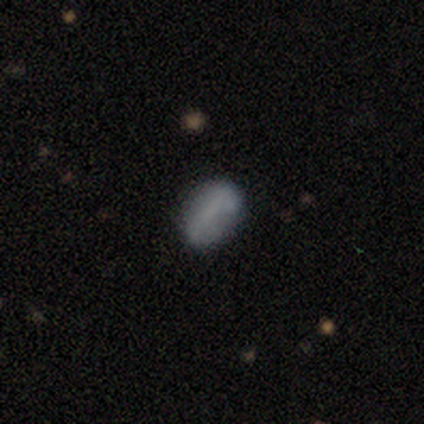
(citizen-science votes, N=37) Smooth or featured: smooth — 73% (featured or disk — 22%)
How rounded: in between — 89% (round — 7%)
Merging: none — 74% (minor disturbance — 14%)